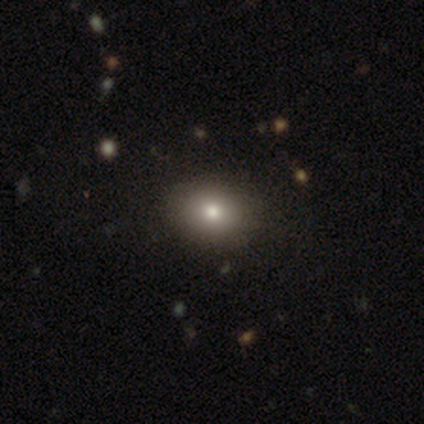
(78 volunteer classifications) A smooth galaxy with no disk features (74%) that is round (50%, tied with in between). Merging: none (48%).